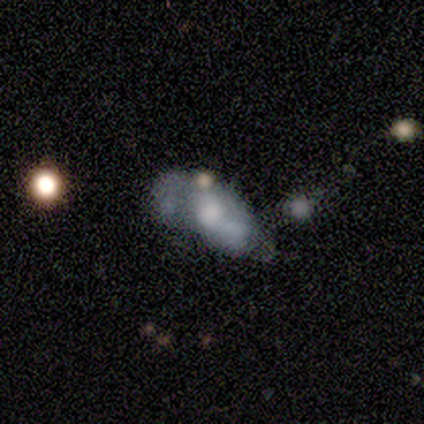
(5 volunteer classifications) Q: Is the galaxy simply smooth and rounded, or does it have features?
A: featured or disk — 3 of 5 (60%).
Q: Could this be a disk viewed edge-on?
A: no — 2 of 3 (67%).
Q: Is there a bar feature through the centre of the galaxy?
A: no — 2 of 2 (100%).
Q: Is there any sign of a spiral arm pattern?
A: yes — 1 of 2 (50%, tied with no).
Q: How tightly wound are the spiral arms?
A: loose — 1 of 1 (100%).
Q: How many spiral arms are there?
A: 1 — 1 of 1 (100%).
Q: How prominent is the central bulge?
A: large — 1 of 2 (50%, tied with none).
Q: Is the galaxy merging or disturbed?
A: merger — 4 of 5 (80%).